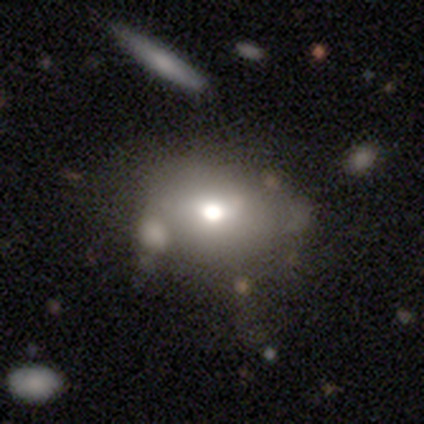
Smooth or featured: smooth — 88% (star or artifact — 12%)
How rounded: in between — 86% (round — 14%)
Merging: none — 57% (minor disturbance — 43%)